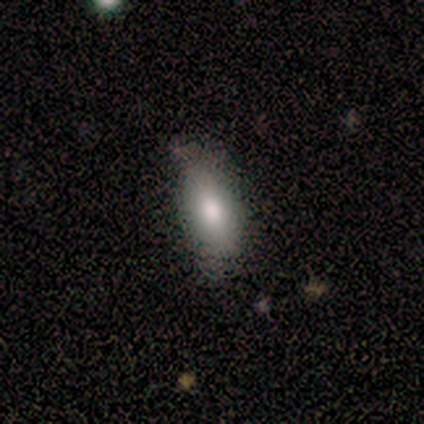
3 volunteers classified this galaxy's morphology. smooth_or_featured: smooth (p=1.00)
how_rounded: in between (p=1.00)
merging: minor disturbance (p=0.67) [alt: none p=0.33]